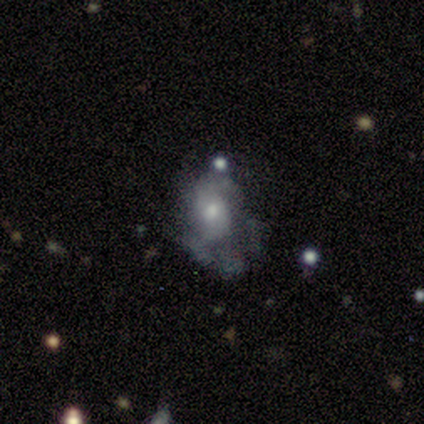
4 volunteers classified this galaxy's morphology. Smooth or featured?
  - featured or disk: 75% *
  - smooth: 25%
  - star or artifact: 0%
Edge-on disk?
  - no: 100% *
  - yes: 0%
Bar?
  - no: 100% *
  - strong: 0%
  - weak: 0%
Spiral arms?
  - no: 67% *
  - yes: 33%
Bulge size?
  - small: 67% *
  - moderate: 33%
  - dominant: 0%
  - large: 0%
  - none: 0%
Merging?
  - none: 50% *
  - minor disturbance: 25%
  - merger: 25%
  - major disturbance: 0%